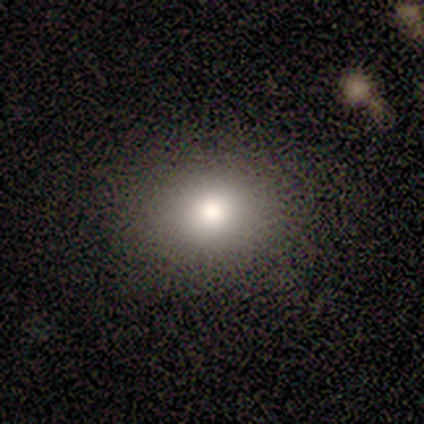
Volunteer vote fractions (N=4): Smooth or featured: smooth — 100%
How rounded: in between — 75% (round — 25%)
Merging: none — 75% (minor disturbance — 25%)